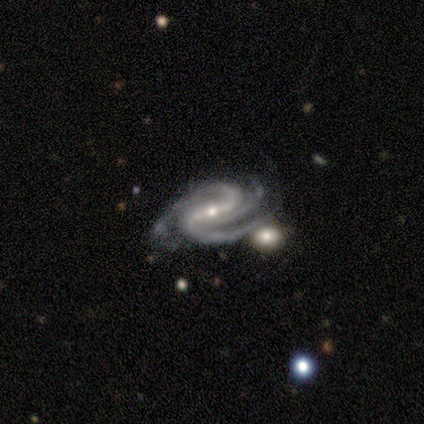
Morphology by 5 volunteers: Smooth or featured: featured or disk — 100%
Edge-on disk: no — 100%
Bar: strong — 60% (weak — 20%)
Spiral arms: yes — 100%
Spiral winding: medium — 60% (tight — 40%)
Spiral arm count: 2 — 60% (3 — 40%)
Bulge size: small — 80% (moderate — 20%)
Merging: none — 80% (merger — 20%)